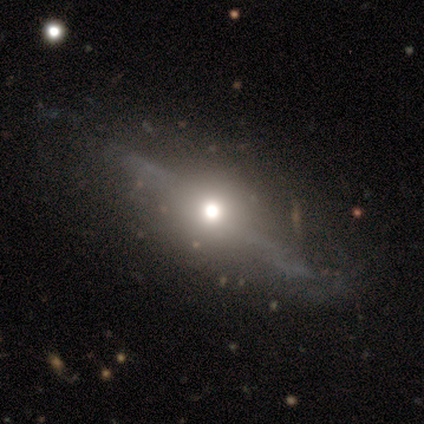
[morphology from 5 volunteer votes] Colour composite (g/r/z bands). It shows a featured or disk galaxy (60%) with a strong bar (50%, tied with no), no spiral arms (100%) and a large central bulge (50%, tied with moderate). Merging: major disturbance (67%).